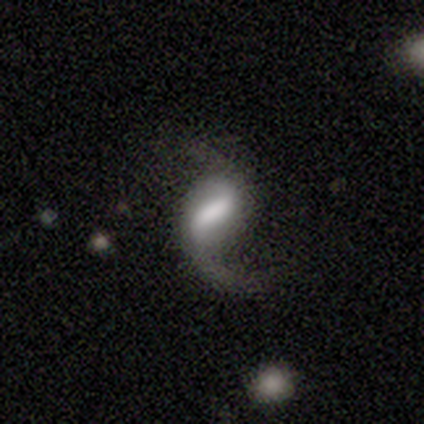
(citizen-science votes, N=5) This is clearly a featured or disk galaxy (80%). It is clearly not viewed edge-on (100%). Bar: likely weak (75%). Spiral arm pattern: likely yes (75%). Spiral arm count: clearly 2 (100%). Spiral winding: clearly loose (100%). Central bulge: marginally dominant (25%, tied with large, moderate and small). Merging: likely major disturbance (60%).